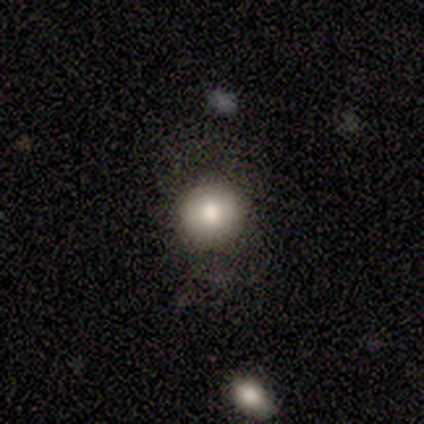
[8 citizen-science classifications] Smooth or featured? 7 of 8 (88%) said smooth. How rounded? 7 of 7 (100%) said round. Merging? 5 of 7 (71%) said none.